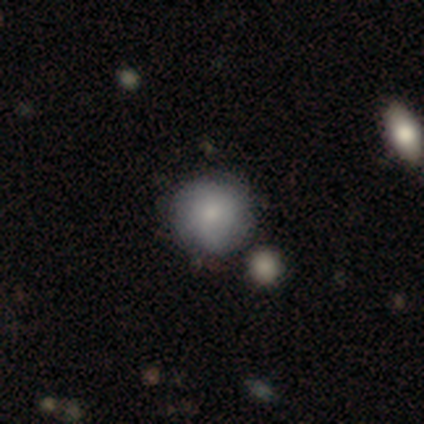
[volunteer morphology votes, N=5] Smooth or featured? smooth (100%)
How rounded? round (80%)
Merging? none (80%)